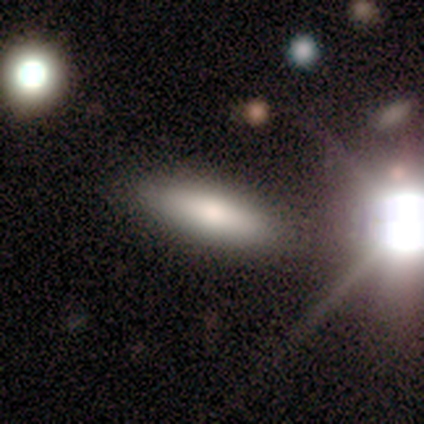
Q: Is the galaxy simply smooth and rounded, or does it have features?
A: smooth — 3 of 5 (60%).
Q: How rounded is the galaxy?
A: in between — 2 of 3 (67%).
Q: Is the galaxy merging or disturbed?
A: none — 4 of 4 (100%).